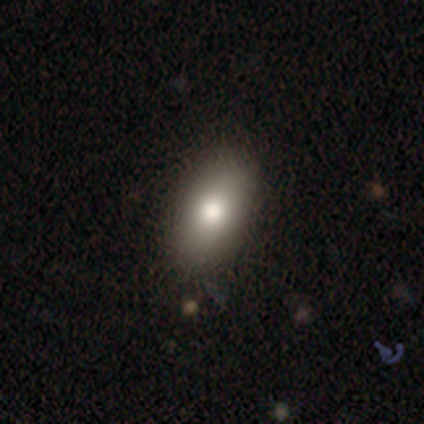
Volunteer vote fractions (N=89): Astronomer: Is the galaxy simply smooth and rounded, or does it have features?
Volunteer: smooth — 88%.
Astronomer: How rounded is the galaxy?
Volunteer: in between — 95%.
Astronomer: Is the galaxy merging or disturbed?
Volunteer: none — 88%.